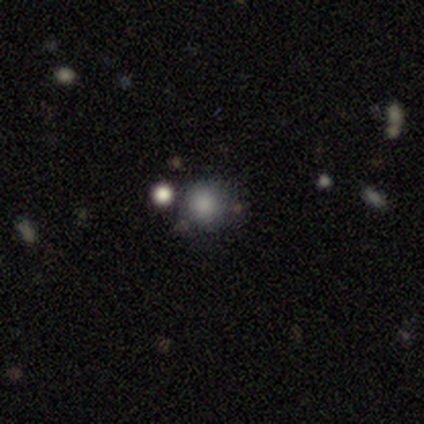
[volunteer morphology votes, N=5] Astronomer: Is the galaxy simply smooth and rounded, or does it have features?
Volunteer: smooth — 100%.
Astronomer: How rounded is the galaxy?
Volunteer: round — 100%.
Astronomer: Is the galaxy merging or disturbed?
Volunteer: none — 80%.